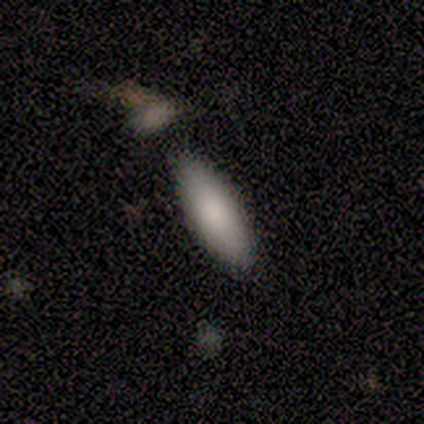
A smooth galaxy with no disk features (80%) that is in between round and cigar-shaped (50%, tied with cigar-shaped). Merging: none (80%).